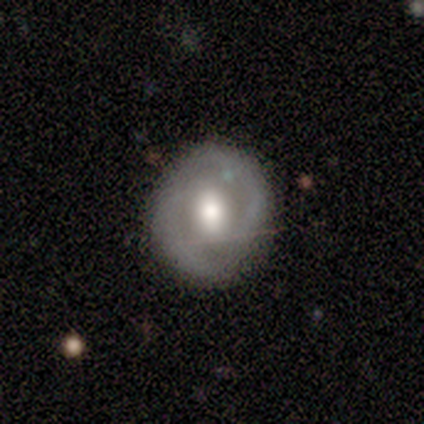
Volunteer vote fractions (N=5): Smooth or featured?
  - smooth: 60% *
  - featured or disk: 40%
  - star or artifact: 0%
How rounded?
  - round: 100% *
  - in between: 0%
  - cigar-shaped: 0%
Merging?
  - none: 80% *
  - minor disturbance: 20%
  - major disturbance: 0%
  - merger: 0%